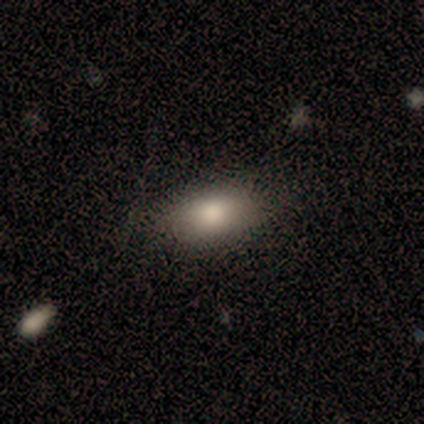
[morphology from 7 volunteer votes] smooth 71%, featured or disk 14%, star or artifact 14%. Down the decision tree: how rounded — in between (100%); merging — none (83%).